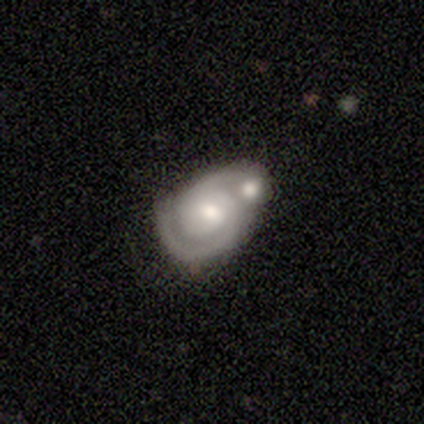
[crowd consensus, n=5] This appears to be a featured or disk galaxy (60%) with no bar (67%), 1 (50%, tied with 2) tight (100%) spiral arms (67%) and a moderate central bulge (100%). Merging: merger (60%).